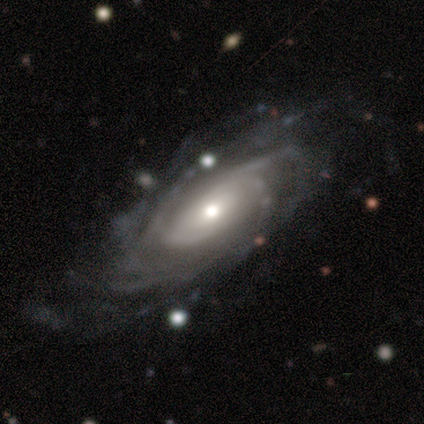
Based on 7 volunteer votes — This appears to be a featured or disk galaxy (100%) with no bar (71%), more than 4 (57%) tight (86%) spiral arms (100%) and a moderate central bulge (57%). Merging: none (86%).